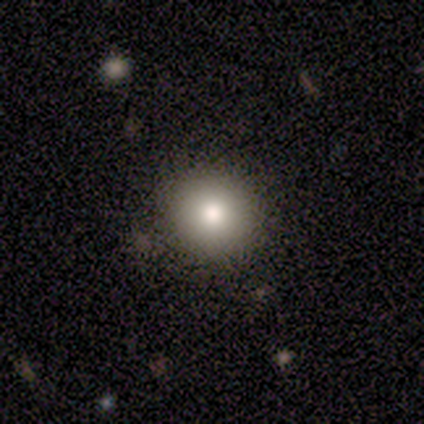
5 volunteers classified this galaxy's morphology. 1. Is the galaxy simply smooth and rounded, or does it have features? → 80% smooth, 20% star or artifact, 0% featured or disk.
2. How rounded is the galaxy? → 75% round, 25% in between, 0% cigar-shaped.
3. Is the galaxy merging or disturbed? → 75% none, 25% minor disturbance, 0% major disturbance, 0% merger.